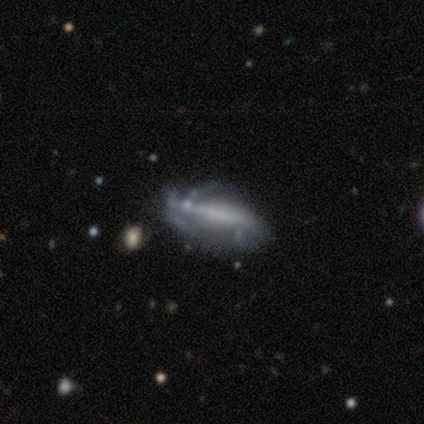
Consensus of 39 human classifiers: Smooth or featured? featured or disk (77%)
Edge-on disk? no (80%)
Bar? no (38%)
Spiral arms? yes (62%)
Spiral winding? medium (47%)
Spiral arm count? can't tell (60%)
Bulge size? none (75%)
Merging? none (53%)